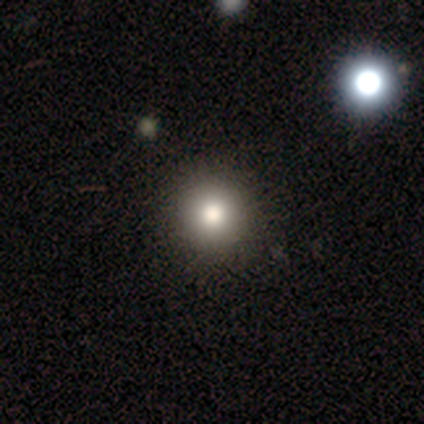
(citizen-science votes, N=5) smooth 80%, star or artifact 20%, featured or disk 0%. Down the decision tree: how rounded — round (100%); merging — none (75%).